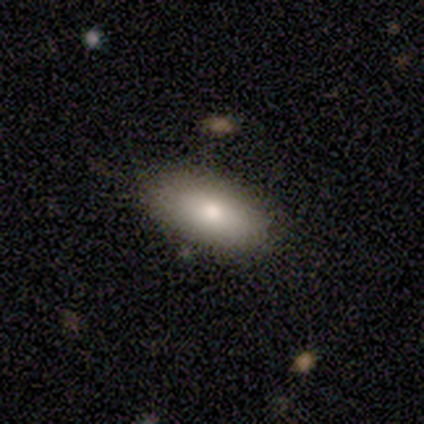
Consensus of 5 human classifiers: smooth_or_featured: smooth (p=0.80) [alt: featured or disk p=0.20]
how_rounded: in between (p=0.75) [alt: cigar-shaped p=0.25]
merging: none (p=1.00)